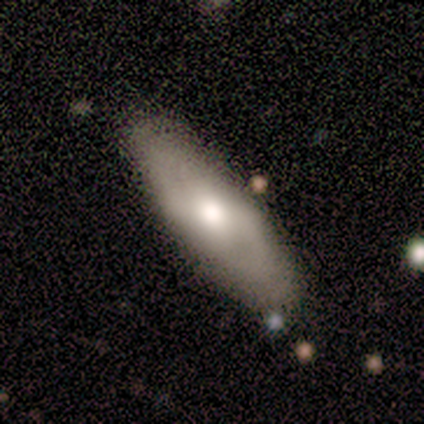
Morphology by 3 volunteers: smooth_or_featured: smooth (p=1.00)
how_rounded: in between (p=1.00)
merging: none (p=1.00)